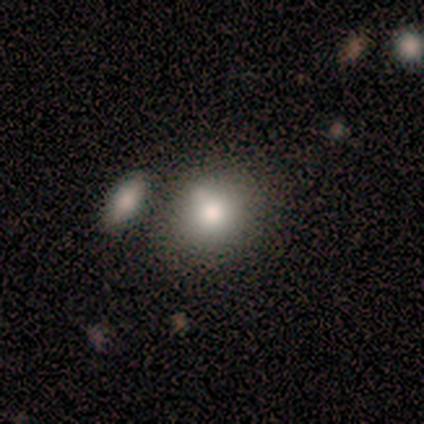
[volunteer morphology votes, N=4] Smooth or featured?
  - smooth: 100% *
  - featured or disk: 0%
  - star or artifact: 0%
How rounded?
  - round: 75% *
  - in between: 25%
  - cigar-shaped: 0%
Merging?
  - none: 75% *
  - merger: 25%
  - minor disturbance: 0%
  - major disturbance: 0%